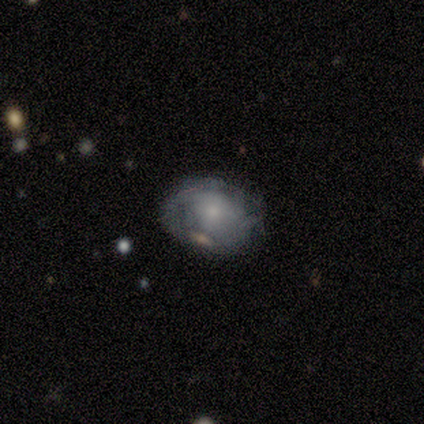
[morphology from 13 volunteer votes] Smooth or featured: featured or disk — 62% (smooth — 38%)
Edge-on disk: no — 88% (yes — 12%)
Bar: no — 86% (weak — 14%)
Spiral arms: yes — 57% (no — 43%)
Spiral winding: tight — 50% (medium — 25%)
Spiral arm count: can't tell — 75% (1 — 25%)
Bulge size: small — 57% (moderate — 29%)
Merging: none — 62% (major disturbance — 23%)